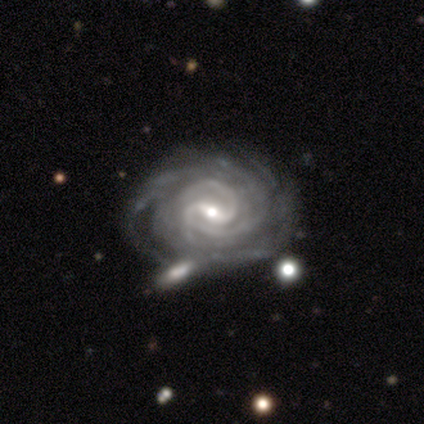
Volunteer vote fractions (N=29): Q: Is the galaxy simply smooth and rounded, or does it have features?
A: featured or disk — 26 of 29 (90%).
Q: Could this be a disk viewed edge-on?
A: no — 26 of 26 (100%).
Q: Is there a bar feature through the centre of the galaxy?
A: weak — 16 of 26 (62%).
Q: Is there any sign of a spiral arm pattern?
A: yes — 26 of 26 (100%).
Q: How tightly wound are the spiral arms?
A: tight — 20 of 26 (77%).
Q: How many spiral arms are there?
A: can't tell — 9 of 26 (35%).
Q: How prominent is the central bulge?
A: small — 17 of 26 (65%).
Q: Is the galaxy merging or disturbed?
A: merger — 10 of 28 (36%).